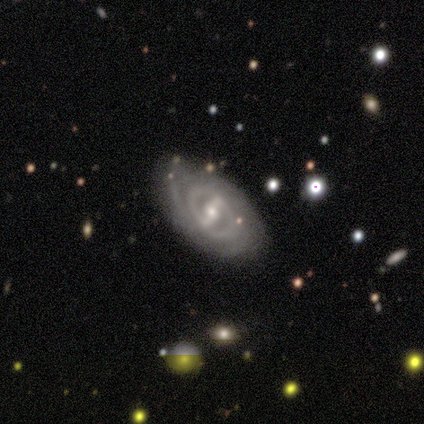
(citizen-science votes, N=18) A featured or disk galaxy (94%) with a strong bar (71%), 2 (50%) tight (62%) spiral arms (94%) and a small central bulge (53%).

Vote fractions:
- Smooth or featured? featured or disk: 94% / smooth: 6% / star or artifact: 0%
- Edge-on disk? no: 100% / yes: 0%
- Bar? strong: 71% / weak: 24% / no: 6%
- Spiral arms? yes: 94% / no: 6%
- Spiral winding? tight: 62% / medium: 19% / loose: 19%
- Spiral arm count? 2: 50% / can't tell: 25% / 1: 19% / 3: 6% / 4: 0% / more than 4: 0%
- Bulge size? small: 53% / moderate: 41% / large: 6% / dominant: 0% / none: 0%
- Merging? none: 94% / minor disturbance: 6% / major disturbance: 0% / merger: 0%